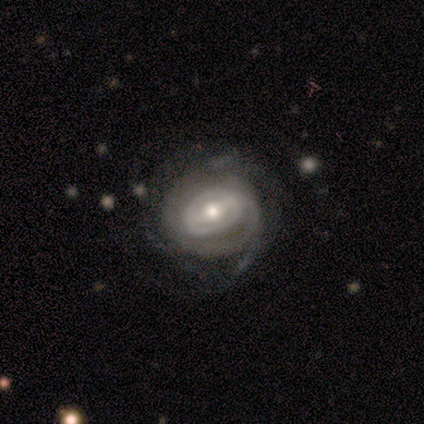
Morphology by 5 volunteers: A featured or disk galaxy (100%) with a weak bar (60%), tight (80%) spiral arms (100%) and a moderate central bulge (60%).

Vote fractions:
- Smooth or featured? featured or disk: 100% / smooth: 0% / star or artifact: 0%
- Edge-on disk? no: 100% / yes: 0%
- Bar? weak: 60% / strong: 20% / no: 20%
- Spiral arms? yes: 100% / no: 0%
- Spiral winding? tight: 80% / medium: 20% / loose: 0%
- Spiral arm count? can't tell: 60% / 2: 20% / more than 4: 20% / 1: 0% / 3: 0% / 4: 0%
- Bulge size? moderate: 60% / small: 40% / dominant: 0% / large: 0% / none: 0%
- Merging? none: 40% (tied) / minor disturbance: 40% (tied) / major disturbance: 20% / merger: 0%